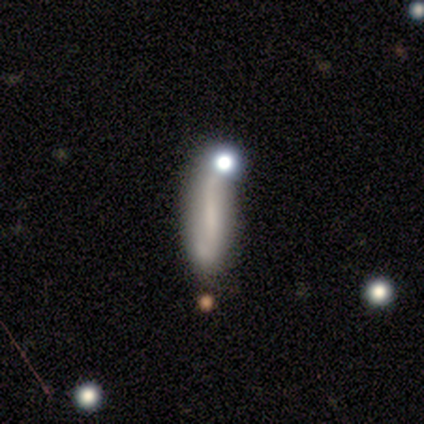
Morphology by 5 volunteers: Overall: smooth (60%; featured or disk 40%). How rounded: cigar-shaped (100%). Merging: none (40%; minor disturbance 20%).